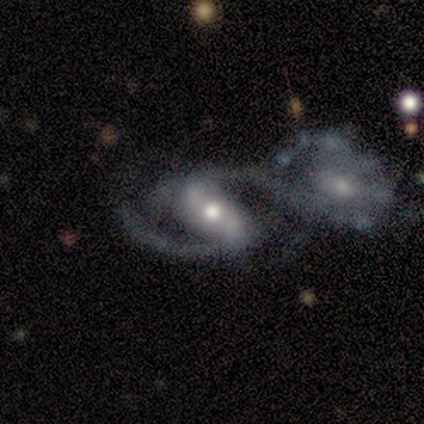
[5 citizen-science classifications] Overall: featured or disk (80%). Edge-on disk: no (100%). Bar: strong (75%). Spiral arms: yes (100%). Spiral arm count: 2 (100%). Spiral winding: medium (50%, tied with loose). Bulge size: moderate (50%, tied with small). Merging: merger (40%; none 20%).